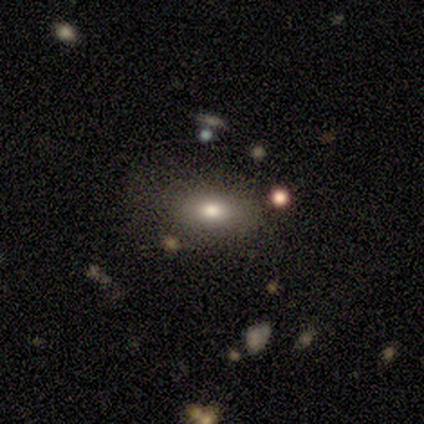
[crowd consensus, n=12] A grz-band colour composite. It shows a smooth galaxy with no disk features (75%) that is in between round and cigar-shaped (89%). Merging: none (45%, tied with minor disturbance).